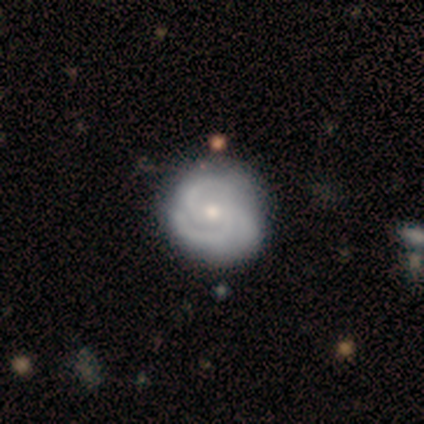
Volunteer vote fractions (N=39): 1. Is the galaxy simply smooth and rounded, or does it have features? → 77% featured or disk, 21% smooth, 3% star or artifact.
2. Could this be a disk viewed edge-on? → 100% no, 0% yes.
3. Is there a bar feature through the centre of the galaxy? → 67% no, 27% weak, 7% strong.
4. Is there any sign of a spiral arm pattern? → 100% yes, 0% no.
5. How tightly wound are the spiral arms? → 47% tight (tied), 47% medium (tied), 7% loose.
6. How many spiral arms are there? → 40% 2, 33% 3, 23% can't tell, 3% 1, 0% 4, 0% more than 4.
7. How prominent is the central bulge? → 53% moderate, 40% small, 7% large, 0% dominant, 0% none.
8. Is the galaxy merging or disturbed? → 61% none, 13% minor disturbance, 8% major disturbance, 0% merger.